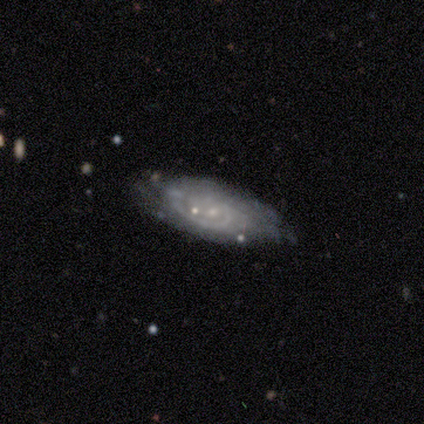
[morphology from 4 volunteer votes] smooth_or_featured: featured or disk (p=0.75) [alt: smooth p=0.25]
disk_edge_on: no (p=1.00)
bar: no (p=0.67) [alt: weak p=0.33]
has_spiral_arms: yes (p=1.00)
spiral_winding: medium (p=0.67) [alt: tight p=0.33]
spiral_arm_count: 1 (p=0.33) [tied with: 2 p=0.33, 3 p=0.33]
bulge_size: small (p=0.67) [alt: none p=0.33]
merging: none (p=0.75) [alt: major disturbance p=0.25]